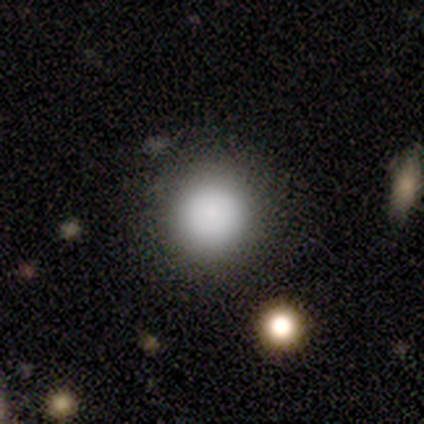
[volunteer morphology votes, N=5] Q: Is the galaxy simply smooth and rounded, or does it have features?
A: smooth — 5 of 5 (100%).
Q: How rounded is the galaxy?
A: round — 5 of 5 (100%).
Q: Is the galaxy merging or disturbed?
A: none — 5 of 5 (100%).